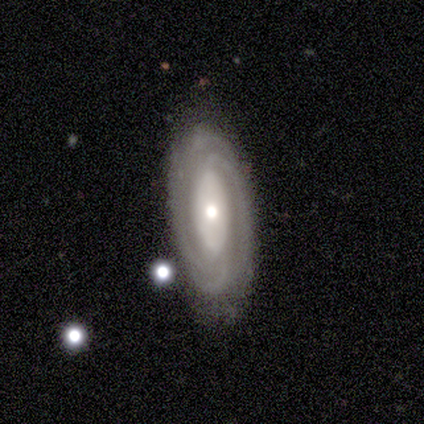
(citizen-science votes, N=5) Volunteers were most divided on "spiral arm count" (3-way tie): 2: 33%, 3: 33%, can't tell: 33%, 1: 0%, 4: 0%, more than 4: 0%. More confident: bar — no (100%); spiral arms — yes (100%); merging — none (100%); smooth or featured — featured or disk (80%); edge-on disk — no (75%); spiral winding — medium (67%); bulge size — moderate (67%).